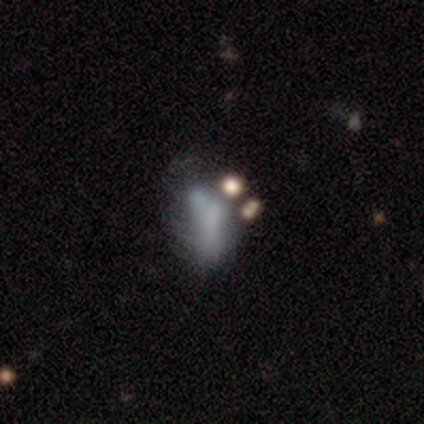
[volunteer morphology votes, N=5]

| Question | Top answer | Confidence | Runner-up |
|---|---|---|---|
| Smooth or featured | featured or disk | 80% | smooth (20%) |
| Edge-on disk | no | 100% | — |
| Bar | no | 75% | strong (25%) |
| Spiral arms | no | 100% | — |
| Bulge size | none | 75% | moderate (25%) |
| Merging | major disturbance | 40% | tied: merger (40%) |